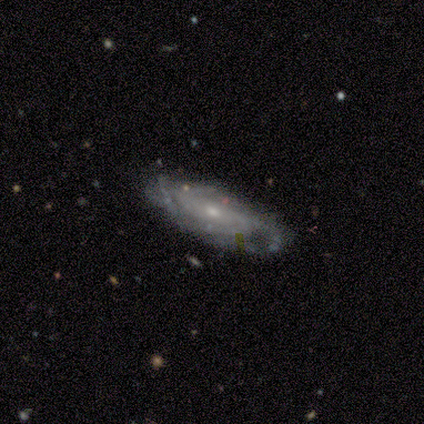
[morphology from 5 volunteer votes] Smooth or featured? 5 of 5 (100%) said featured or disk. Edge-on disk? 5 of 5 (100%) said no. Bar? 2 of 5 (40%, tied with no) said weak. Spiral arms? 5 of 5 (100%) said yes. Spiral winding? 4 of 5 (80%) said tight. Spiral arm count? 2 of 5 (40%, tied with can't tell) said 2. Bulge size? 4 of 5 (80%) said small. Merging? 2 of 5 (40%, tied with minor disturbance) said none.